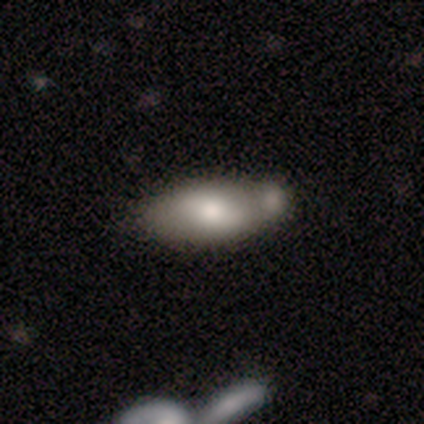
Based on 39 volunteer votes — Smooth or featured: smooth — 54% (featured or disk — 38%)
How rounded: in between — 90% (cigar-shaped — 10%)
Merging: merger — 47% (none — 19%)